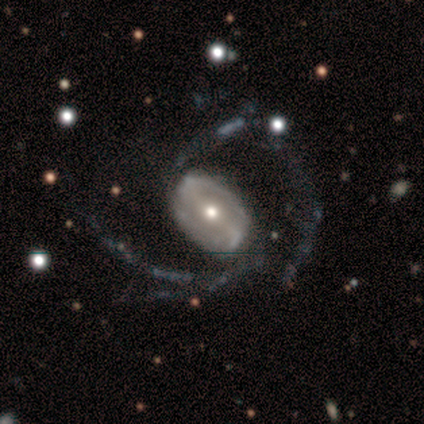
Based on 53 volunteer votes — Morphology: type=featured or disk (92%); edge-on=no (100%); bar=strong (51%); spiral arms=yes (100%); winding=loose (59%); arm count=2 (73%); bulge=moderate (57%); merging=none (46%).